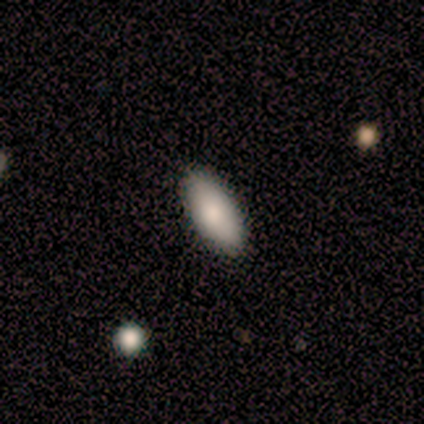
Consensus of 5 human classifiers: Volunteers were most divided on "smooth or featured": smooth: 80%, star or artifact: 20%, featured or disk: 0%. More confident: how rounded — in between (100%); merging — none (100%).